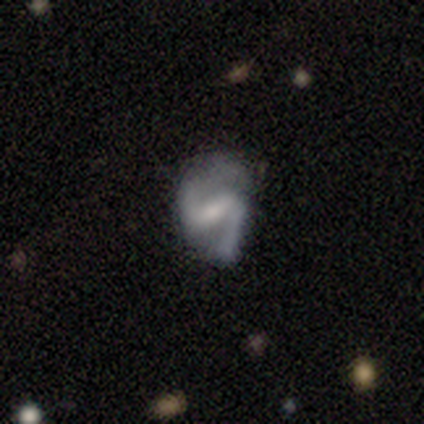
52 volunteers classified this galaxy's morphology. Overall: featured or disk (96%). Edge-on disk: no (96%). Bar: strong (48%; weak 46%). Spiral arms: yes (90%). Spiral arm count: 2 (95%). Spiral winding: medium (51%; loose 42%). Bulge size: small (50%; moderate 29%). Merging: none (63%; minor disturbance 24%).